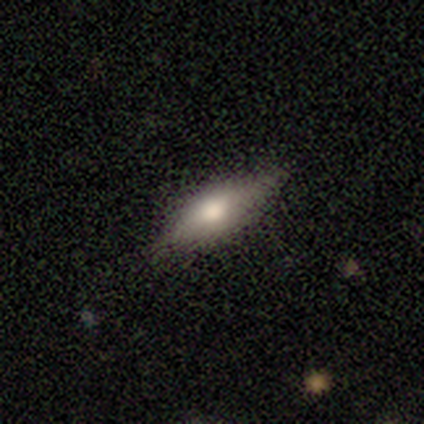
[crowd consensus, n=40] A smooth galaxy with no disk features (50%) that is cigar-shaped (60%).

Vote fractions:
- Smooth or featured? smooth: 50% / featured or disk: 42% / star or artifact: 8%
- How rounded? cigar-shaped: 60% / in between: 40% / round: 0%
- Merging? none: 84% / minor disturbance: 16% / major disturbance: 0% / merger: 0%